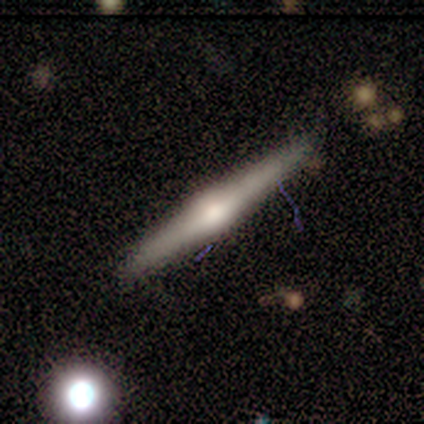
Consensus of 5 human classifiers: Smooth or featured: featured or disk — 80% (smooth — 20%)
Edge-on disk: yes — 100%
Edge-on bulge: rounded — 75% (none — 25%)
Merging: none — 100%